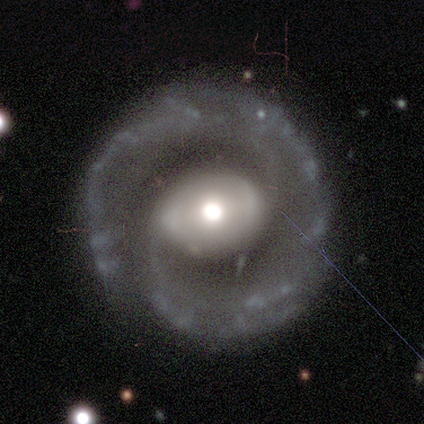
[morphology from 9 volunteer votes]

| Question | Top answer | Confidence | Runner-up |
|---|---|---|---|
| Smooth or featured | featured or disk | 89% | smooth (11%) |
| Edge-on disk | no | 100% | — |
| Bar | no | 62% | weak (25%) |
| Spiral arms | yes | 100% | — |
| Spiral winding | tight | 50% | medium (38%) |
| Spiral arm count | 2 | 50% | 1 (25%) |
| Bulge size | moderate | 50% | large (25%) |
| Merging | none | 67% | major disturbance (22%) |